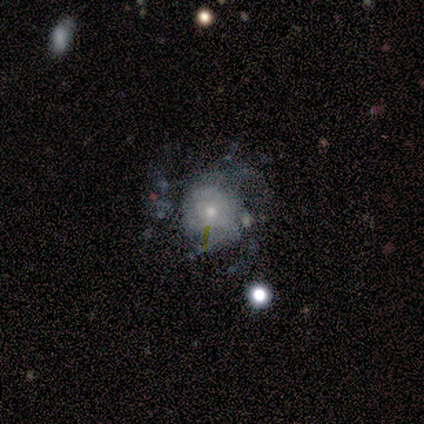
This appears to be a featured or disk galaxy (60%) with no bar (100%), tight (67%) spiral arms (100%) and a moderate central bulge (67%). Merging: none (75%).